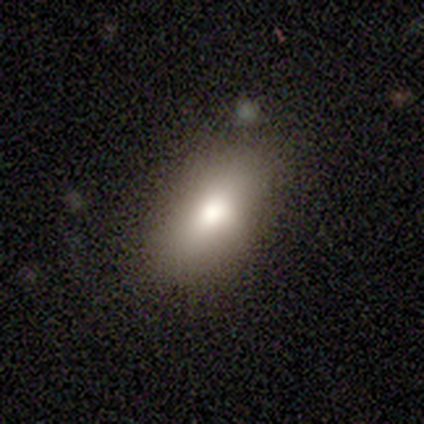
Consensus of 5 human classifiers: A smooth galaxy with no disk features (80%) that is in between round and cigar-shaped (100%).

Vote fractions:
- Smooth or featured? smooth: 80% / star or artifact: 20% / featured or disk: 0%
- How rounded? in between: 100% / round: 0% / cigar-shaped: 0%
- Merging? none: 75% / minor disturbance: 25% / major disturbance: 0% / merger: 0%